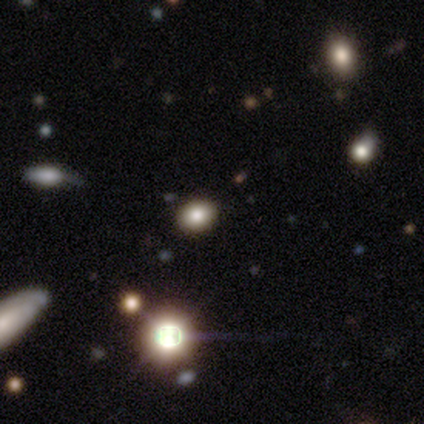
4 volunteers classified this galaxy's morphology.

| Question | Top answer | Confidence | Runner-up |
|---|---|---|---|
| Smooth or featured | smooth | 75% | featured or disk (25%) |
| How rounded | in between | 67% | round (33%) |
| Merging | none | 100% | — |